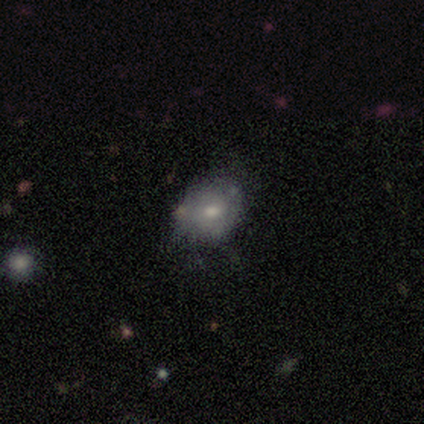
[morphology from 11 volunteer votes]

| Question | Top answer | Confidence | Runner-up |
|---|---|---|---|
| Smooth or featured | smooth | 55% | featured or disk (45%) |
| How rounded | round | 50% | tied: in between (50%) |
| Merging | none | 73% | minor disturbance (27%) |